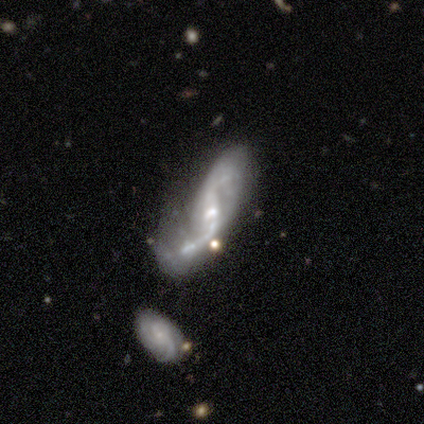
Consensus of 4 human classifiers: Smooth or featured? featured or disk (75%)
Edge-on disk? no (67%)
Bar? strong (100%)
Spiral arms? yes (100%)
Spiral winding? medium (50%, tied with loose)
Spiral arm count? 2 (100%)
Bulge size? moderate (50%, tied with small)
Merging? major disturbance (50%)